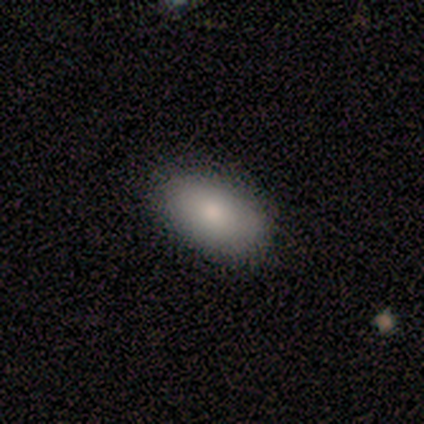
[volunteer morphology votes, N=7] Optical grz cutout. It shows a smooth galaxy with no disk features (71%) that is in between round and cigar-shaped (100%). Merging: none (100%).